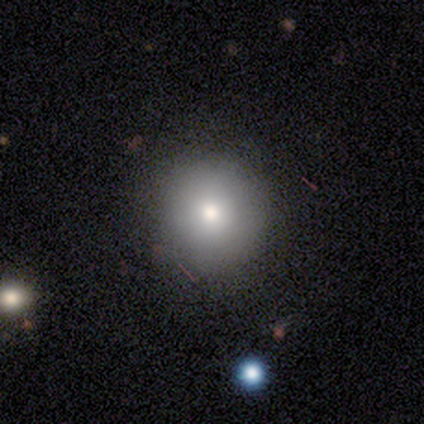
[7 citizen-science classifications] smooth-or-featured: smooth: 71% | featured or disk: 14% | star or artifact: 14%
  how-rounded: round: 60% | in between: 40% | cigar-shaped: 0%
  merging: none: 67% | minor disturbance: 17% | major disturbance: 17% | merger: 0%